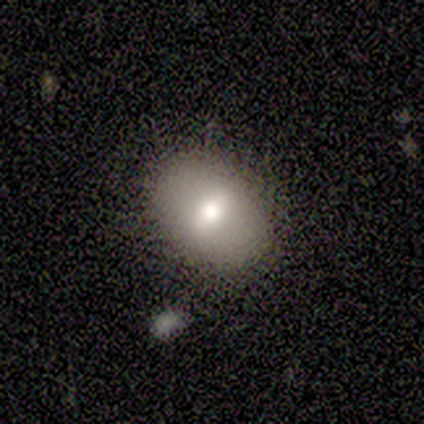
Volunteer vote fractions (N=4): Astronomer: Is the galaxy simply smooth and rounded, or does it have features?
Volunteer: smooth — 75%.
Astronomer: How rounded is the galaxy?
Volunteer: in between — 100%.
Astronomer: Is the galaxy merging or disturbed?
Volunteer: none — 50%, tied with minor disturbance at 50%.